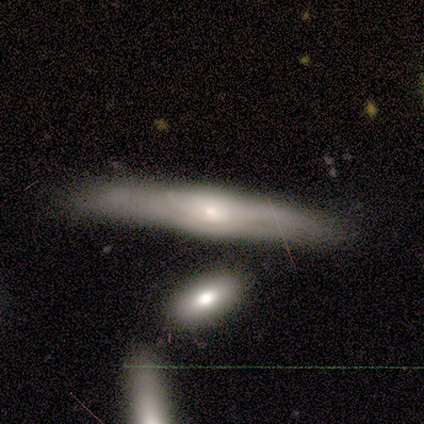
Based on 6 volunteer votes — Smooth or featured?
  - featured or disk: 83% *
  - star or artifact: 17%
  - smooth: 0%
Edge-on disk?
  - yes: 80% *
  - no: 20%
Edge-on bulge?
  - rounded: 75% *
  - boxy: 25%
  - none: 0%
Merging?
  - none: 40% * (tied)
  - minor disturbance: 40% * (tied)
  - merger: 20%
  - major disturbance: 0%